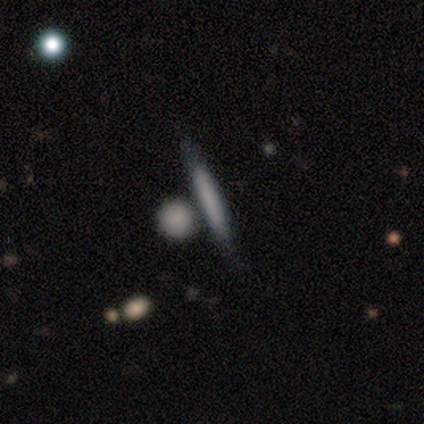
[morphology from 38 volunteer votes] This appears to be a smooth galaxy with no disk features (61%) that is cigar-shaped (96%). Merging: none (69%).